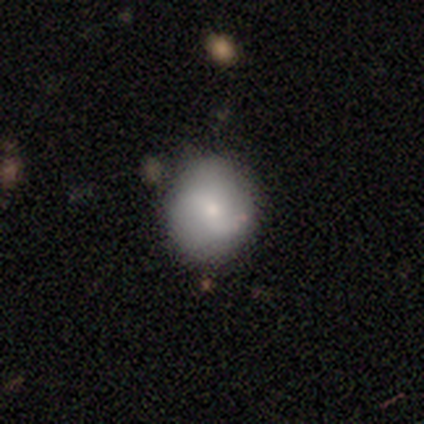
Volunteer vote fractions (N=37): Q: Smooth or featured?
A: smooth (76%); runner-up: featured or disk (22%)
Q: How rounded?
A: round (89%); runner-up: in between (11%)
Q: Merging?
A: none (92%); runner-up: merger (6%)